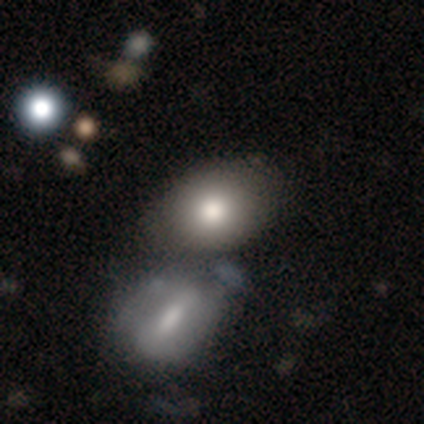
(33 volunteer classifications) Smooth or featured? smooth (94%)
How rounded? in between (74%)
Merging? merger (58%)